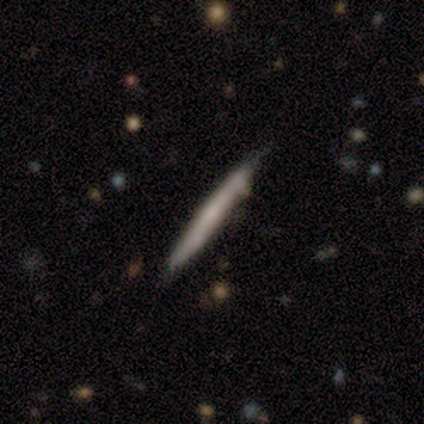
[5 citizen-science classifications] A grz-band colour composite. It shows a featured or disk galaxy (60%) viewed edge-on (100%) with no central bulge (67%). Merging: none (100%).